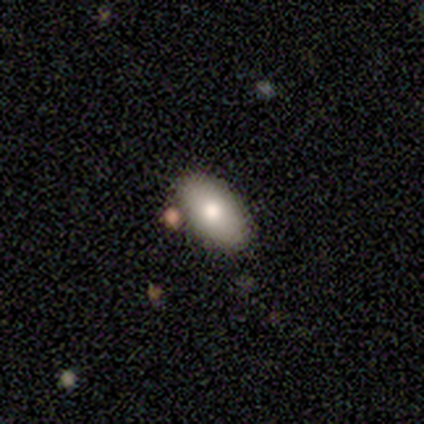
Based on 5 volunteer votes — Overall: smooth (100%). How rounded: in between (100%). Merging: none (80%).